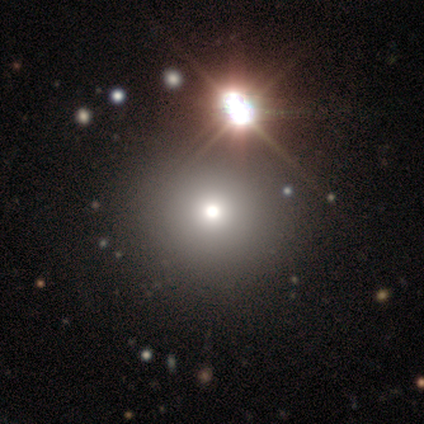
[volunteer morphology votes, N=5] This is clearly a star or artifact rather than a galaxy (80%).